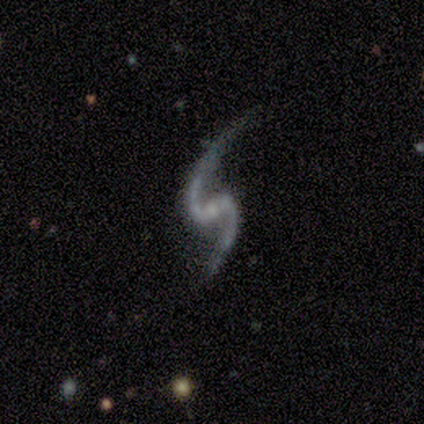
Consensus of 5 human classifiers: Smooth or featured?
  - featured or disk: 100% *
  - smooth: 0%
  - star or artifact: 0%
Edge-on disk?
  - no: 100% *
  - yes: 0%
Bar?
  - weak: 60% *
  - strong: 20%
  - no: 20%
Spiral arms?
  - yes: 100% *
  - no: 0%
Spiral winding?
  - loose: 60% *
  - medium: 40%
  - tight: 0%
Spiral arm count?
  - 2: 100% *
  - 1: 0%
  - 3: 0%
  - 4: 0%
  - more than 4: 0%
  - can't tell: 0%
Bulge size?
  - moderate: 40% * (tied)
  - none: 40% * (tied)
  - small: 20%
  - dominant: 0%
  - large: 0%
Merging?
  - none: 80% *
  - minor disturbance: 20%
  - major disturbance: 0%
  - merger: 0%